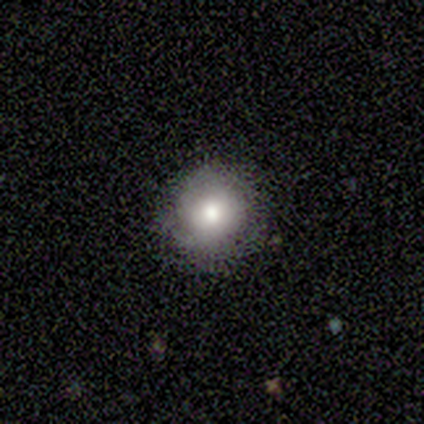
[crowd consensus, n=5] This appears to be a smooth galaxy with no disk features (80%) that is round (100%). Merging: none (100%).